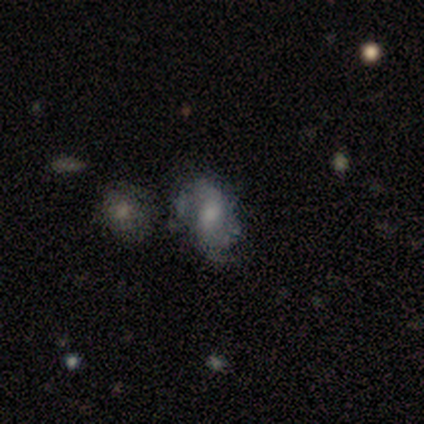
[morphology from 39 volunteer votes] This appears to be a featured or disk galaxy (64%) with no bar (62%), 2 (85%) medium (45%) spiral arms (83%) and a moderate central bulge (50%). Merging: none (57%).